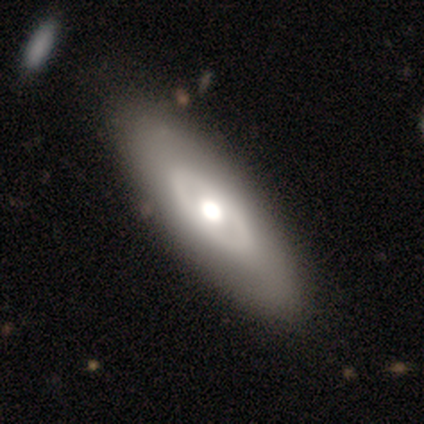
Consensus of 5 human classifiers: Smooth or featured? 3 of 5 (60%) said smooth. How rounded? 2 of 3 (67%) said in between. Merging? 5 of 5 (100%) said none.